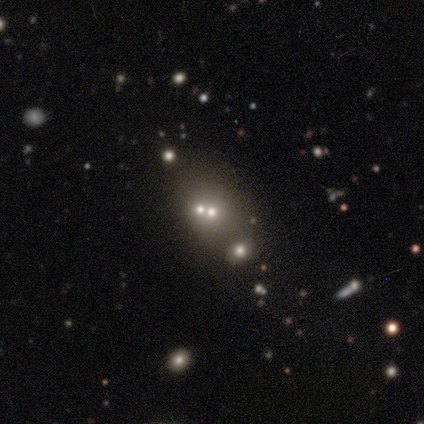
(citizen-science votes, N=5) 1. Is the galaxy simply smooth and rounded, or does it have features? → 60% star or artifact, 20% smooth, 20% featured or disk.